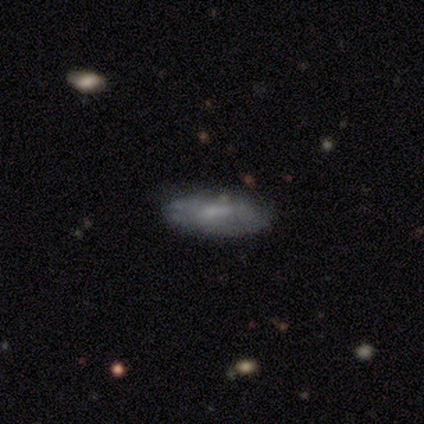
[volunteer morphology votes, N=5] This appears to be a featured or disk galaxy (60%) with no bar (100%), loose (100%) spiral arms (50%, tied with no) and a small central bulge (100%). Merging: none (60%).